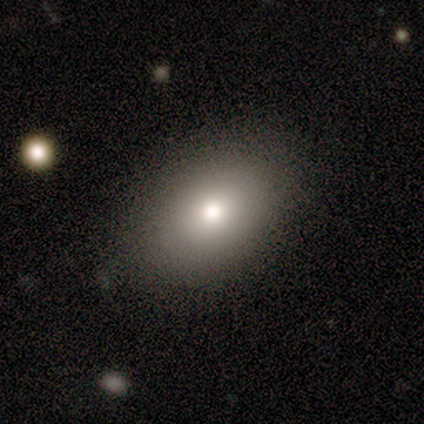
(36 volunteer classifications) A smooth galaxy with no disk features (81%) that is in between round and cigar-shaped (86%).

Vote fractions:
- Smooth or featured? smooth: 81% / featured or disk: 11% / star or artifact: 8%
- How rounded? in between: 86% / round: 14% / cigar-shaped: 0%
- Merging? none: 88% / minor disturbance: 12% / major disturbance: 0% / merger: 0%